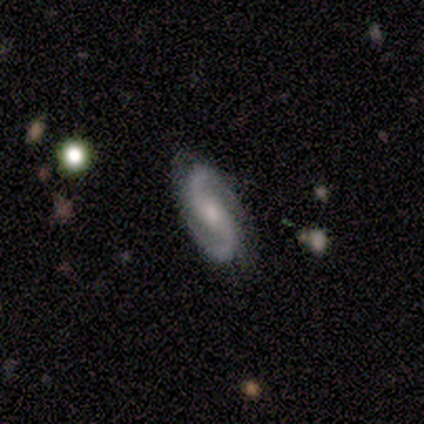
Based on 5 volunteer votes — smooth-or-featured: featured or disk: 100% | smooth: 0% | star or artifact: 0%
  disk-edge-on: no: 100% | yes: 0%
    bar: weak: 60% | no: 40% | strong: 0%
    has-spiral-arms: yes: 100% | no: 0%
      spiral-winding: tight: 60% | medium: 20% | loose: 20%
      spiral-arm-count: 2: 100% | 1: 0% | 3: 0% | 4: 0% | more than 4: 0% | can't tell: 0%
    bulge-size: moderate: 60% | small: 40% | dominant: 0% | large: 0% | none: 0%
  merging: none: 80% | minor disturbance: 20% | major disturbance: 0% | merger: 0%